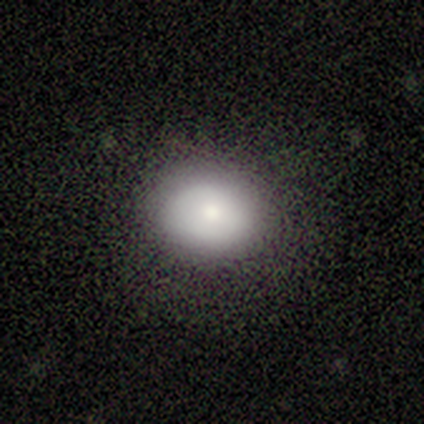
Overall: smooth (89%). How rounded: round (62%; in between 35%). Merging: none (78%).